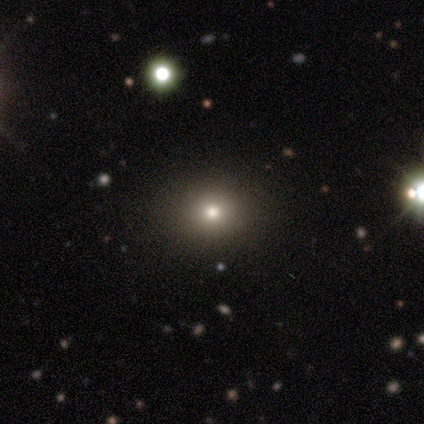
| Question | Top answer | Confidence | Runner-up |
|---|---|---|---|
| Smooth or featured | smooth | 81% | star or artifact (11%) |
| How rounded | round | 67% | in between (33%) |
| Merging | none | 88% | minor disturbance (6%) |